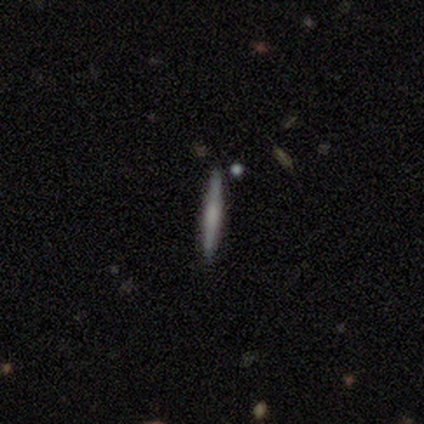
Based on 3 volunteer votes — Smooth or featured? smooth (67%)
How rounded? cigar-shaped (100%)
Merging? none (100%)